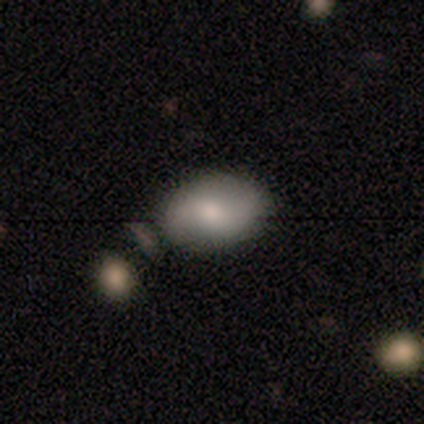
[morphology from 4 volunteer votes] smooth-or-featured: featured or disk: 50% | smooth: 25% | star or artifact: 25%
  disk-edge-on: no: 100% | yes: 0%
    bar: no: 100% | strong: 0% | weak: 0%
    has-spiral-arms: yes: 100% | no: 0%
      spiral-winding: tight: 100% | medium: 0% | loose: 0%
      spiral-arm-count: 2: 100% | 1: 0% | 3: 0% | 4: 0% | more than 4: 0% | can't tell: 0%
    bulge-size: moderate: 100% | dominant: 0% | large: 0% | small: 0% | none: 0%
  merging: none: 100% | minor disturbance: 0% | major disturbance: 0% | merger: 0%